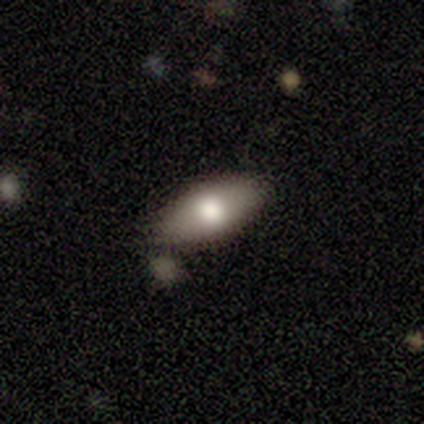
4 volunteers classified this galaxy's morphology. Overall: smooth (50%; featured or disk 25%). How rounded: in between (100%). Merging: none (33%, tied with minor disturbance and merger).